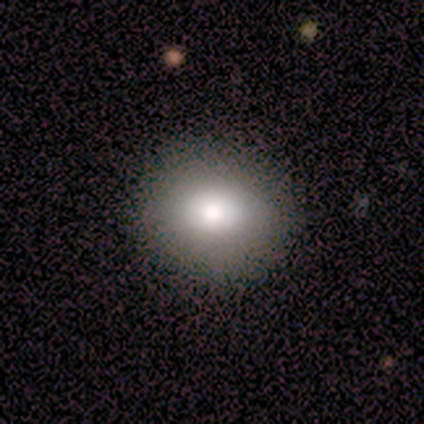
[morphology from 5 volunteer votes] A smooth galaxy with no disk features (60%) that is round (67%).

Vote fractions:
- Smooth or featured? smooth: 60% / featured or disk: 40% / star or artifact: 0%
- How rounded? round: 67% / in between: 33% / cigar-shaped: 0%
- Merging? none: 100% / minor disturbance: 0% / major disturbance: 0% / merger: 0%